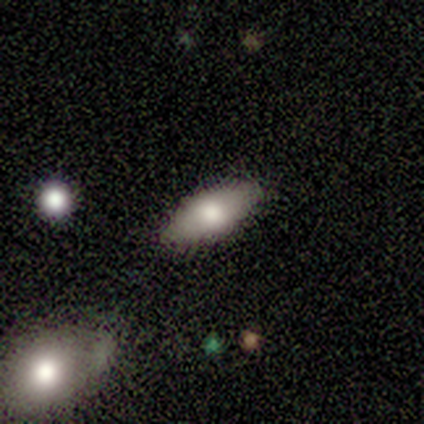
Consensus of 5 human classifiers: Smooth or featured? 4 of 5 (80%) said smooth. How rounded? 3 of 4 (75%) said in between. Merging? 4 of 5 (80%) said none.